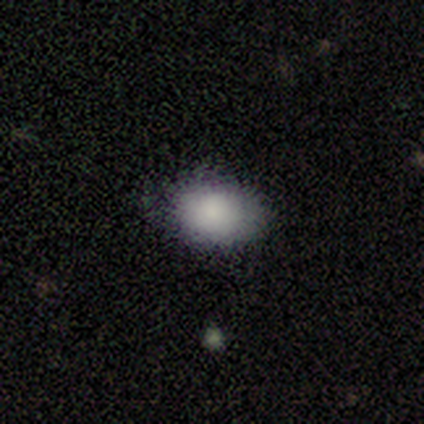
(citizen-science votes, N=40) This is clearly a smooth galaxy (85%). How rounded: likely in between (71%). Merging: clearly none (80%).